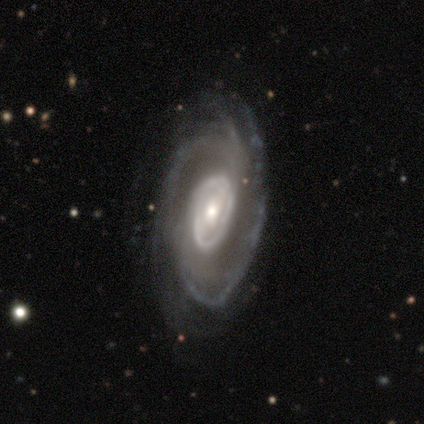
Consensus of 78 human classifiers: A featured or disk galaxy (92%) with no bar (47%), tight (50%) spiral arms (91%) and a moderate central bulge (56%). Merging: none (39%).